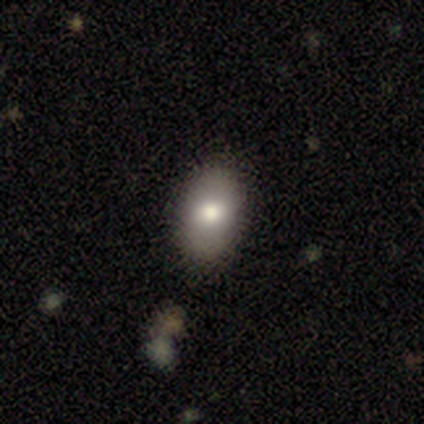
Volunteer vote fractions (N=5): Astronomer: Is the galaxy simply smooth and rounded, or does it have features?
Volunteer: smooth — 100%.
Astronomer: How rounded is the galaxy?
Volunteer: in between — 100%.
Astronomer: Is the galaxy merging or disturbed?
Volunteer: none — 100%.